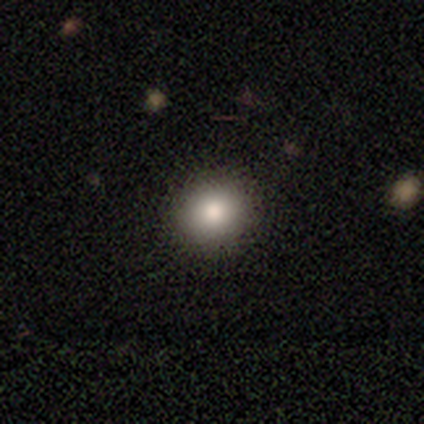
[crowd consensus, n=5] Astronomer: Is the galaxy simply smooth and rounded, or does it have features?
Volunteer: smooth — 100%.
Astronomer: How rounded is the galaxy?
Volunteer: round — 100%.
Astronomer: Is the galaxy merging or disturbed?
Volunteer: none — 100%.